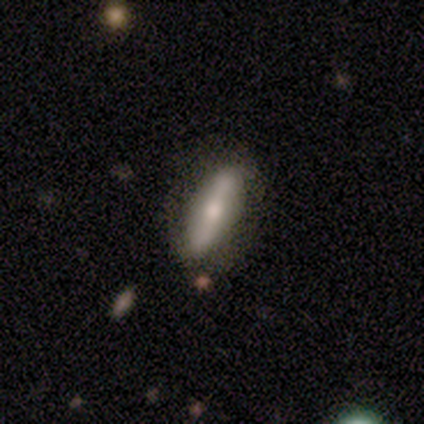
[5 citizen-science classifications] smooth-or-featured: smooth: 60% | featured or disk: 40% | star or artifact: 0%
  how-rounded: cigar-shaped: 100% | round: 0% | in between: 0%
  merging: none: 80% | minor disturbance: 20% | major disturbance: 0% | merger: 0%